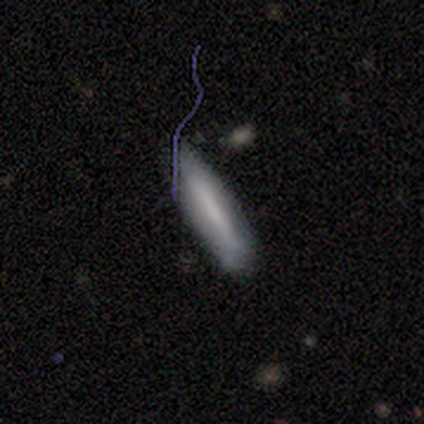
Smooth or featured? 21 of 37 (57%) said smooth. How rounded? 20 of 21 (95%) said cigar-shaped. Merging? 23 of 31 (74%) said none.